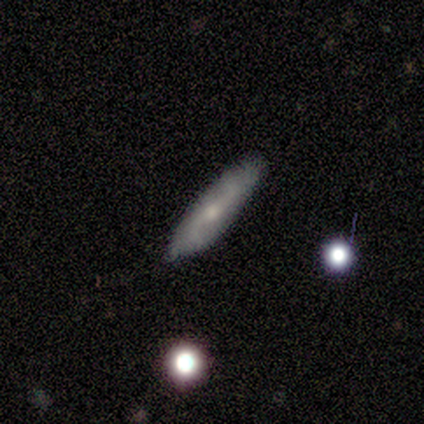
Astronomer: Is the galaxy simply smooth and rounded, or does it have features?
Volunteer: featured or disk — 80%.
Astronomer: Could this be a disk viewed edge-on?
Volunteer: no — 75%.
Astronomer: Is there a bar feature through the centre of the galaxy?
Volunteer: weak — 100%.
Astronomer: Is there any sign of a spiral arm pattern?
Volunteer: yes — 100%.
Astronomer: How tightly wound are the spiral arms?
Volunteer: loose — 100%.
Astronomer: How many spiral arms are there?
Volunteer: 2 — 67%.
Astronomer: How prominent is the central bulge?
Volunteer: small — 100%.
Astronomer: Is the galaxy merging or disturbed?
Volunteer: none — 80%.